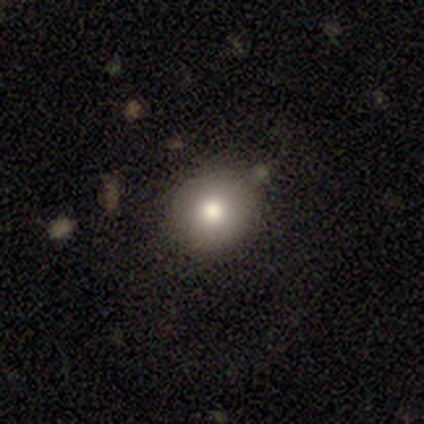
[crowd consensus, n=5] This appears to be a smooth galaxy with no disk features (80%) that is round (50%, tied with in between). Merging: none (75%).